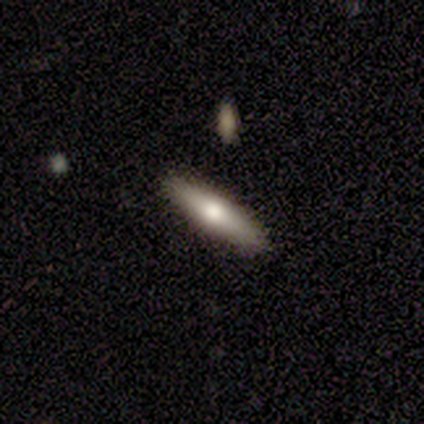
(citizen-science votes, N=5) Overall: smooth (80%). How rounded: cigar-shaped (75%). Merging: none (100%).